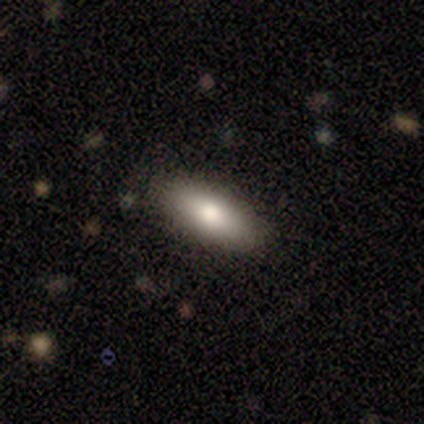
This is clearly a smooth galaxy (100%). How rounded: likely in between (60%). Merging: clearly none (100%).